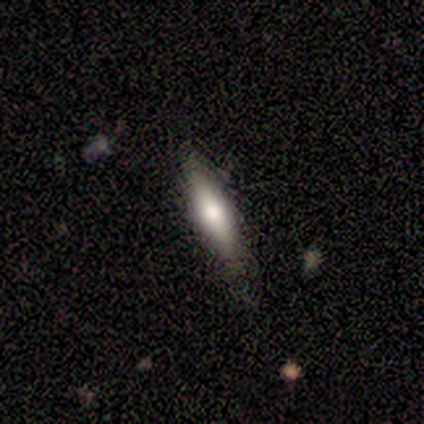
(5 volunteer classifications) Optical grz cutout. It shows a smooth galaxy with no disk features (60%) that is cigar-shaped (100%). Merging: none (100%).